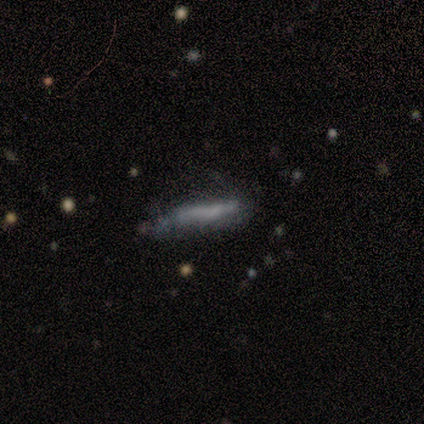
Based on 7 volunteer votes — Smooth or featured? 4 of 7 (57%) said smooth. How rounded? 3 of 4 (75%) said cigar-shaped. Merging? 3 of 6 (50%) said major disturbance.